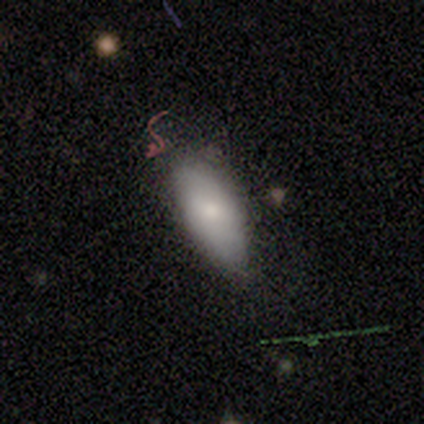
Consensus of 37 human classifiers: Volunteers were most divided on "smooth or featured": smooth: 65%, featured or disk: 22%, star or artifact: 14%. More confident: how rounded — in between (96%); merging — none (72%).